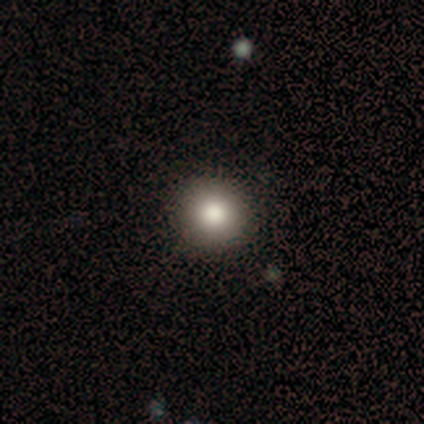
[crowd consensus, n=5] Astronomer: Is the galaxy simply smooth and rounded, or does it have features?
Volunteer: smooth — 80%.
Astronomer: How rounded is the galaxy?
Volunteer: round — 100%.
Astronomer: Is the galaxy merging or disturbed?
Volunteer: none — 100%.